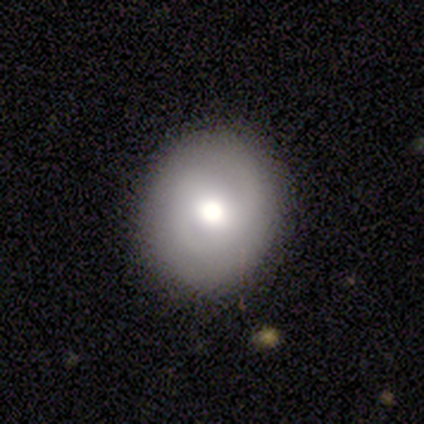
Smooth or featured? 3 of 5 (60%) said featured or disk. Edge-on disk? 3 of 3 (100%) said no. Bar? 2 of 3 (67%) said no. Spiral arms? 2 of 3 (67%) said yes. Spiral winding? 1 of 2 (50%, tied with loose) said medium. Spiral arm count? 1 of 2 (50%, tied with 2) said 1. Bulge size? 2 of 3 (67%) said moderate. Merging? 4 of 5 (80%) said none.